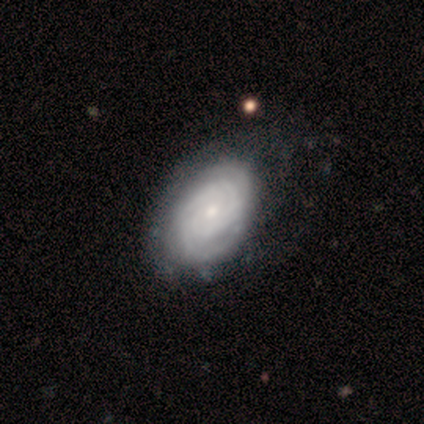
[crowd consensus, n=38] This appears to be a featured or disk galaxy (74%) with no bar (89%), tight (85%) spiral arms (96%) and a small central bulge (57%). Merging: none (72%).